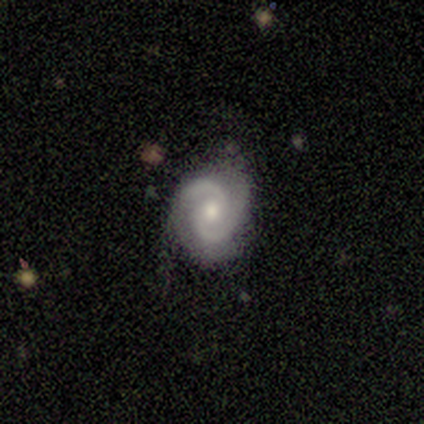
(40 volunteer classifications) Volunteers were most divided on "bar": no: 49%, weak: 40%, strong: 11%. Remaining: spiral arms — yes (100%); edge-on disk — no (97%); spiral arm count — 2 (97%); smooth or featured — featured or disk (90%); merging — none (79%); bulge size — moderate (69%); spiral winding — medium (49%).